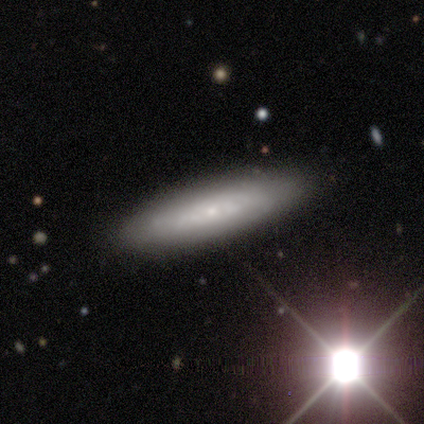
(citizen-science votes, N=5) A smooth galaxy with no disk features (80%) that is cigar-shaped (75%). Merging: none (80%).